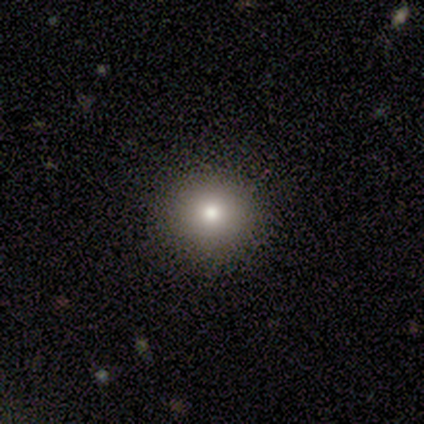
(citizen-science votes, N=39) Q: Smooth or featured?
A: smooth (77%); runner-up: star or artifact (21%)
Q: How rounded?
A: round (93%); runner-up: in between (7%)
Q: Merging?
A: none (94%); runner-up: minor disturbance (6%)